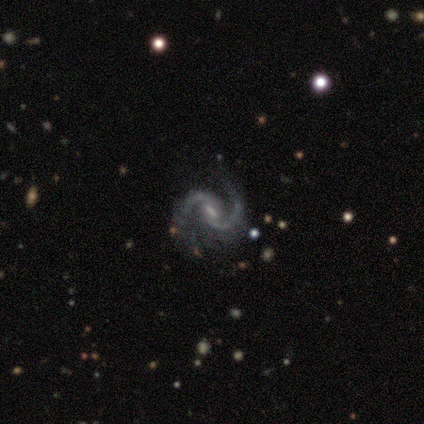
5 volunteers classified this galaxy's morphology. Smooth or featured?
  - featured or disk: 100% *
  - smooth: 0%
  - star or artifact: 0%
Edge-on disk?
  - no: 100% *
  - yes: 0%
Bar?
  - weak: 60% *
  - strong: 20%
  - no: 20%
Spiral arms?
  - yes: 100% *
  - no: 0%
Spiral winding?
  - tight: 40% * (tied)
  - loose: 40% * (tied)
  - medium: 20%
Spiral arm count?
  - 2: 100% *
  - 1: 0%
  - 3: 0%
  - 4: 0%
  - more than 4: 0%
  - can't tell: 0%
Bulge size?
  - small: 60% *
  - moderate: 40%
  - dominant: 0%
  - large: 0%
  - none: 0%
Merging?
  - none: 80% *
  - major disturbance: 20%
  - minor disturbance: 0%
  - merger: 0%